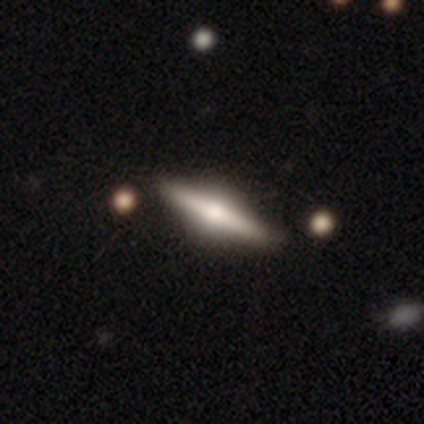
smooth_or_featured: featured or disk (p=0.75) [alt: smooth p=0.25]
disk_edge_on: yes (p=1.00)
edge_on_bulge: rounded (p=1.00)
merging: none (p=1.00)